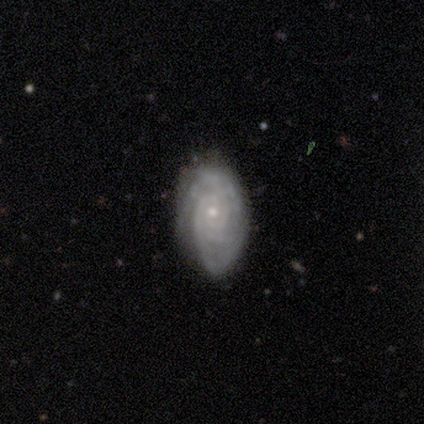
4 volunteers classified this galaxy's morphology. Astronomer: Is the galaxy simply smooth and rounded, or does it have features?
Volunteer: featured or disk — 50%.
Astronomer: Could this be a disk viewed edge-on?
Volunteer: yes — 50%, tied with no at 50%.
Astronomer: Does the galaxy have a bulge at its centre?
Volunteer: rounded — 100%.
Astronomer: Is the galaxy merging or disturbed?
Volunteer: minor disturbance — 67%.